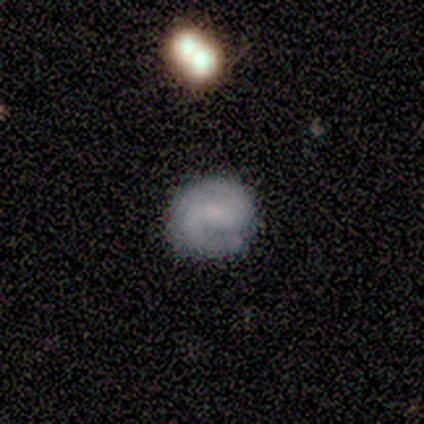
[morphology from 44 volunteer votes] Q: Smooth or featured?
A: featured or disk (75%); runner-up: smooth (23%)
Q: Edge-on disk?
A: no (97%); runner-up: yes (3%)
Q: Bar?
A: no (56%); runner-up: weak (31%)
Q: Spiral arms?
A: yes (94%); runner-up: no (6%)
Q: Spiral winding?
A: medium (50%); runner-up: tight (47%)
Q: Spiral arm count?
A: 2 (90%); runner-up: 1 (7%)
Q: Bulge size?
A: small (47%); runner-up: none (28%)
Q: Merging?
A: none (88%); runner-up: minor disturbance (9%)